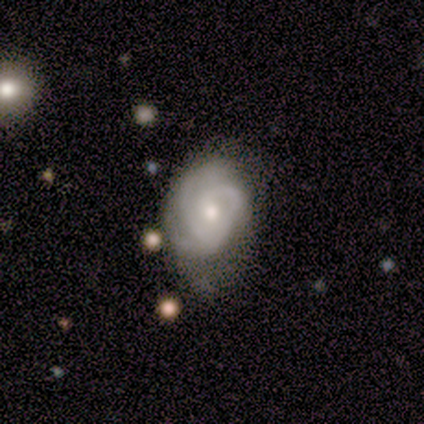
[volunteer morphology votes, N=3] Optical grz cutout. It shows a featured or disk galaxy (100%) with no bar (67%), 3 (50%, tied with can't tell) tight (100%) spiral arms (67%) and a moderate central bulge (100%). Merging: none (67%).